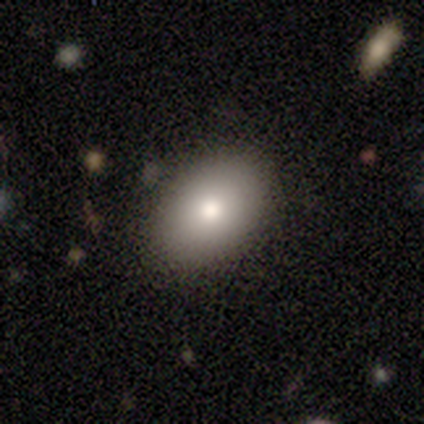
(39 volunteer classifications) Q: Smooth or featured?
A: smooth (77%); runner-up: star or artifact (13%)
Q: How rounded?
A: in between (87%); runner-up: round (13%)
Q: Merging?
A: none (94%); runner-up: minor disturbance (6%)